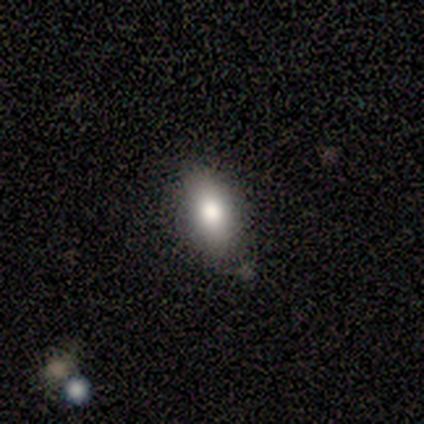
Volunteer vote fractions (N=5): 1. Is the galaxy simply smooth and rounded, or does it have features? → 40% smooth (tied), 40% star or artifact (tied), 20% featured or disk.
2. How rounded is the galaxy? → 100% in between, 0% round, 0% cigar-shaped.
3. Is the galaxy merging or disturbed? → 33% none (tied), 33% minor disturbance (tied), 33% merger (tied), 0% major disturbance.